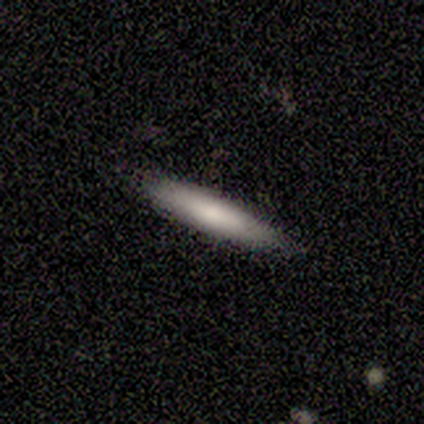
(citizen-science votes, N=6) Q: Smooth or featured?
A: smooth (50%); tied with: featured or disk (50%)
Q: How rounded?
A: cigar-shaped (100%)
Q: Merging?
A: none (100%)